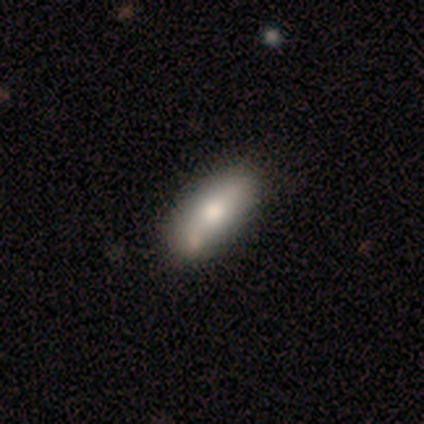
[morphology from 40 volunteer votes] Smooth or featured: smooth — 70% (featured or disk — 20%)
How rounded: in between — 89% (cigar-shaped — 11%)
Merging: none — 69% (merger — 17%)